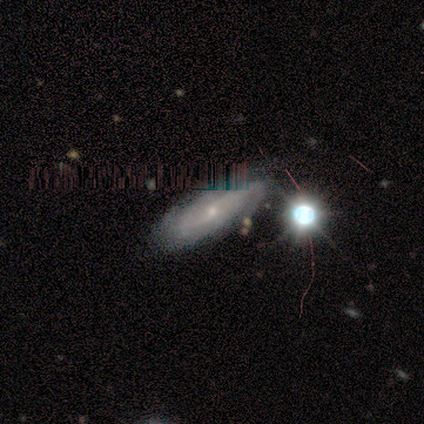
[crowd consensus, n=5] featured or disk 60%, star or artifact 40%, smooth 0%. Down the decision tree: edge-on disk — no (100%); bar — weak (67%); spiral arms — yes (100%); spiral arm count — 2 (67%); spiral winding — loose (100%); bulge size — small (100%); merging — none (100%).